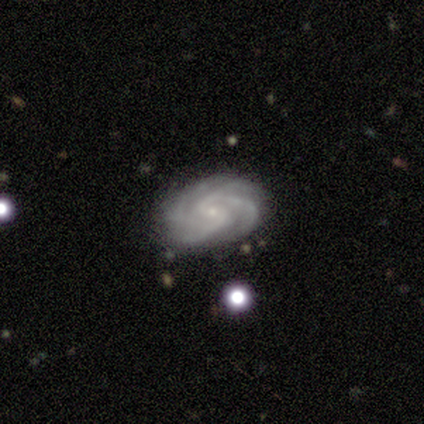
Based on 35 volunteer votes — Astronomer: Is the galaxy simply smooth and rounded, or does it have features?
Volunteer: featured or disk — 97%.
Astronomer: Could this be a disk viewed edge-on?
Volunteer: no — 97%.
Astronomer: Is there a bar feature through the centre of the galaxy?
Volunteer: no — 52% (runner-up: weak, 42%).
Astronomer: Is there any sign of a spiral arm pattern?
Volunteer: yes — 100%.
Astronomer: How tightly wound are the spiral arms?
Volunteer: tight — 73%.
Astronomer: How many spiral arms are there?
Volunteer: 4 — 55%.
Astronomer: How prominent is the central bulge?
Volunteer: small — 94%.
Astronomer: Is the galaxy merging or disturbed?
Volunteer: none — 80%.